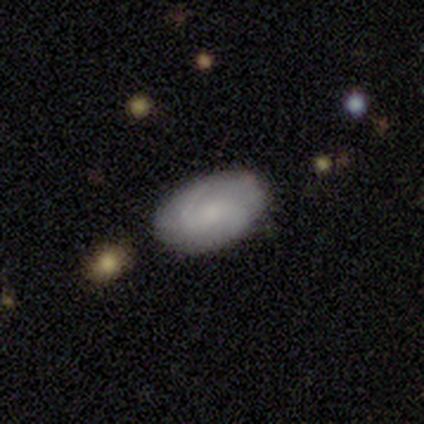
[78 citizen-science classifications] Overall: featured or disk (58%; smooth 42%). Edge-on disk: no (100%). Bar: no (71%). Spiral arms: yes (89%). Spiral arm count: 2 (62%; can't tell 30%). Spiral winding: medium (45%; tight 40%). Bulge size: small (33%; moderate 29%). Merging: none (54%).